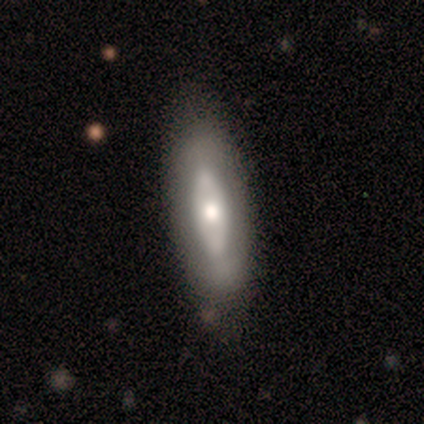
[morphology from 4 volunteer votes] Smooth or featured? smooth (75%)
How rounded? in between (100%)
Merging? none (75%)